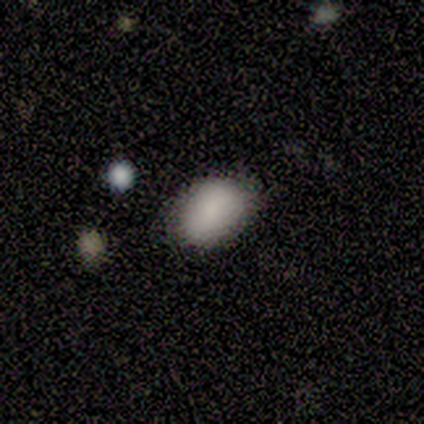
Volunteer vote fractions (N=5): smooth_or_featured: smooth (p=0.80) [alt: featured or disk p=0.20]
how_rounded: in between (p=0.75) [alt: round p=0.25]
merging: none (p=0.80) [alt: major disturbance p=0.20]